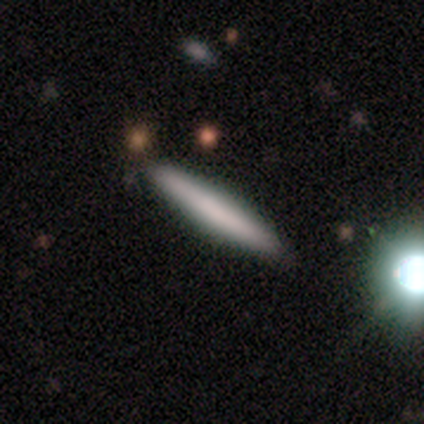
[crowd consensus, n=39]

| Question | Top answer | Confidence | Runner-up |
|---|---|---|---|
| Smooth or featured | smooth | 64% | featured or disk (31%) |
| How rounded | cigar-shaped | 100% | — |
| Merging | none | 92% | minor disturbance (8%) |